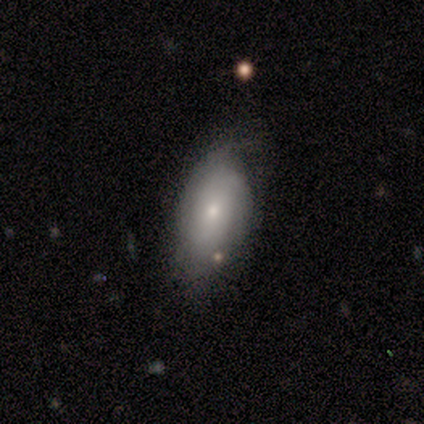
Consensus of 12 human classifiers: smooth 58%, featured or disk 33%, star or artifact 8%. Down the decision tree: how rounded — in between (86%); merging — none (82%).